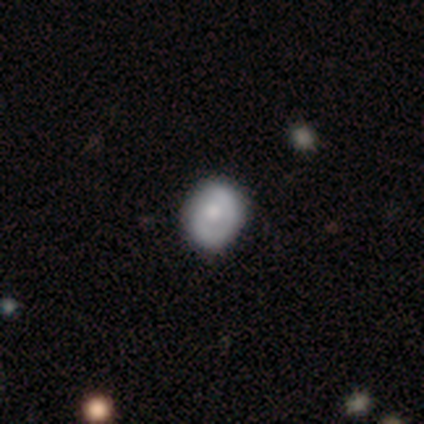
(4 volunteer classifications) Overall: featured or disk (75%). Edge-on disk: no (100%). Bar: no (100%). Spiral arms: yes (67%; no 33%). Spiral arm count: 2 (100%). Spiral winding: tight (50%, tied with medium). Bulge size: large (33%, tied with moderate and none). Merging: none (75%).